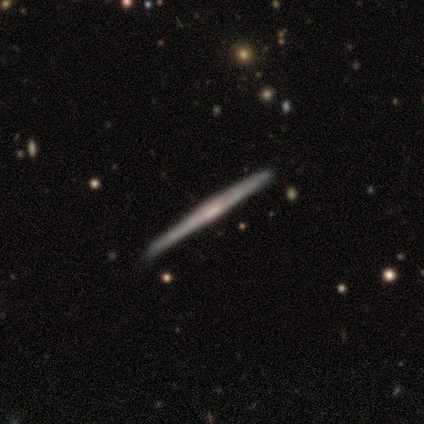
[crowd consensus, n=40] Volunteers were most divided on "edge-on bulge": none: 70%, rounded: 27%, boxy: 3%. More confident: edge-on disk — yes (97%); merging — none (86%); smooth or featured — featured or disk (85%).